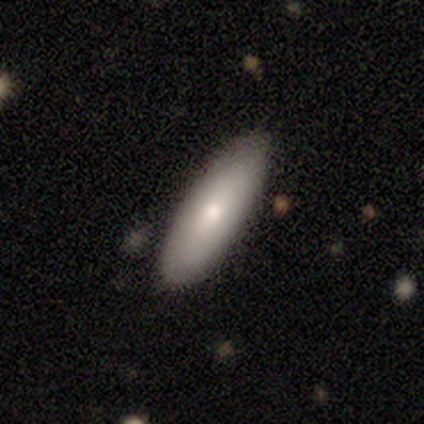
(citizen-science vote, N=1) Smooth or featured: featured or disk — 100%
Edge-on disk: no — 100%
Bar: no — 100%
Spiral arms: no — 100%
Bulge size: small — 100%
Merging: none — 100%